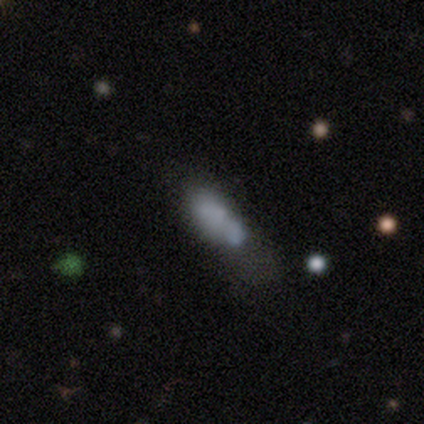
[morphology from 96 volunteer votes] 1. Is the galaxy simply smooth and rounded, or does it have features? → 58% smooth, 27% featured or disk, 15% star or artifact.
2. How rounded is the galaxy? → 64% in between, 36% cigar-shaped, 0% round.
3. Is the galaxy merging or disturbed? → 28% none (tied), 28% minor disturbance (tied), 24% merger, 20% major disturbance.